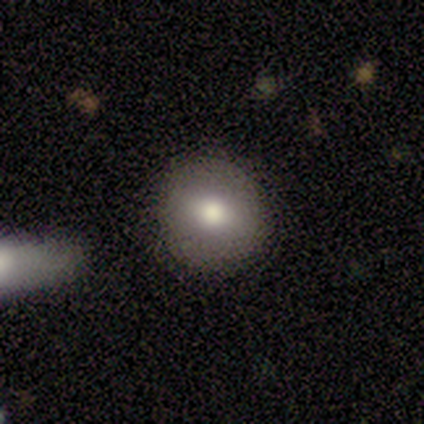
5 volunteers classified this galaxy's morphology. Overall: smooth (60%; featured or disk 20%). How rounded: round (100%). Merging: none (100%).